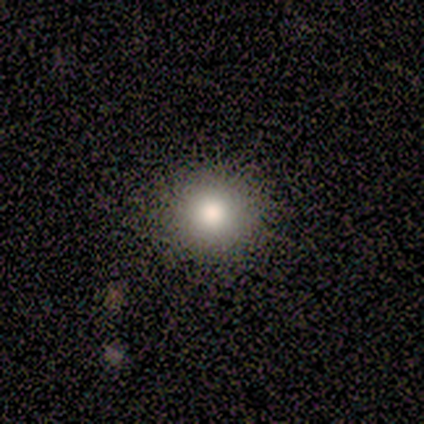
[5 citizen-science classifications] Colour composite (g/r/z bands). It shows a featured or disk galaxy (60%) with no bar (100%), no spiral arms (100%) and a large central bulge (67%). Merging: none (60%).